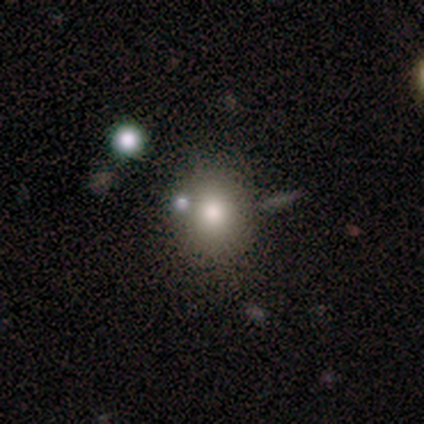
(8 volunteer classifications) A smooth galaxy with no disk features (88%) that is round (100%). Merging: none (75%).